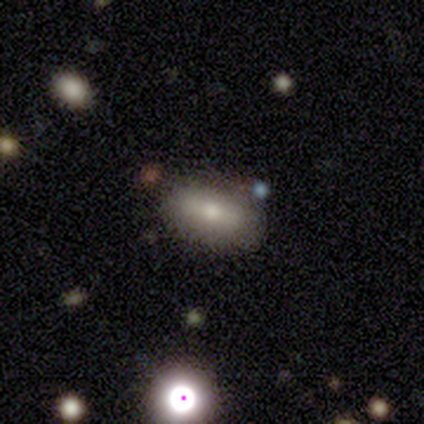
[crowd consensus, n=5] This appears to be a smooth galaxy with no disk features (60%) that is in between round and cigar-shaped (100%). Merging: none (80%).